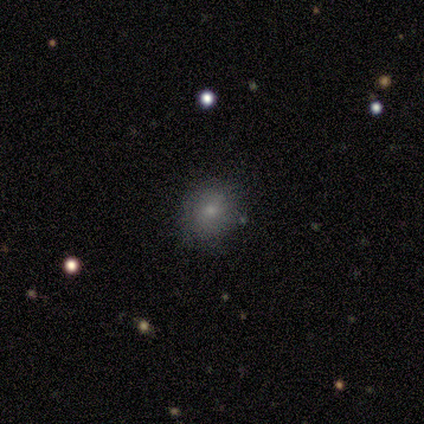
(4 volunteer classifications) Overall: smooth (75%). How rounded: round (100%). Merging: none (100%).